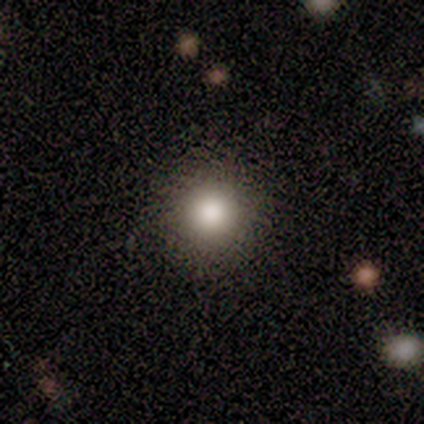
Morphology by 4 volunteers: Smooth or featured? smooth (100%)
How rounded? round (100%)
Merging? none (75%)